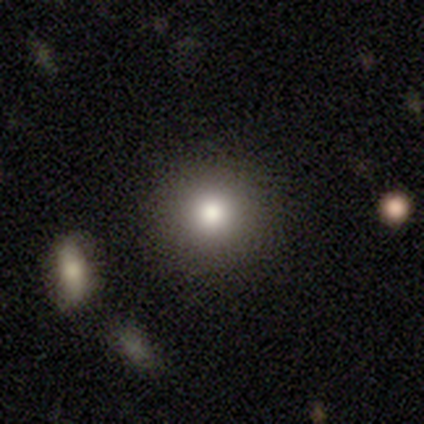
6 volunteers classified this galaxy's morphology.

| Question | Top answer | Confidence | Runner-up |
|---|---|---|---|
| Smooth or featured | smooth | 83% | featured or disk (17%) |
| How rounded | round | 100% | — |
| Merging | none | 83% | minor disturbance (17%) |